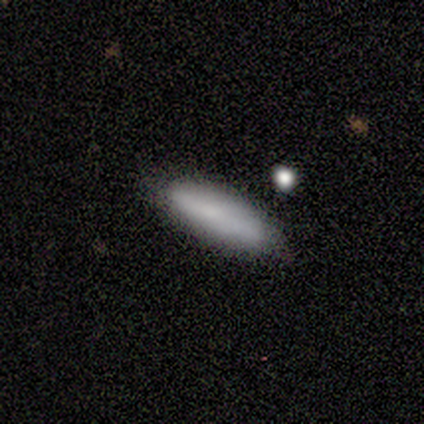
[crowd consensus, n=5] Morphology: type=smooth (60%); roundness=in between (67%); merging=none (67%).